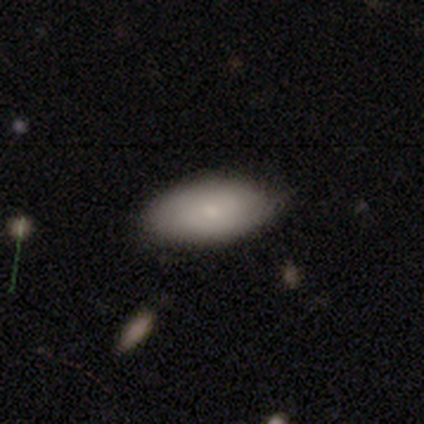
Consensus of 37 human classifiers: Smooth or featured? 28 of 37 (76%) said smooth. How rounded? 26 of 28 (93%) said in between. Merging? 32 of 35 (91%) said none.